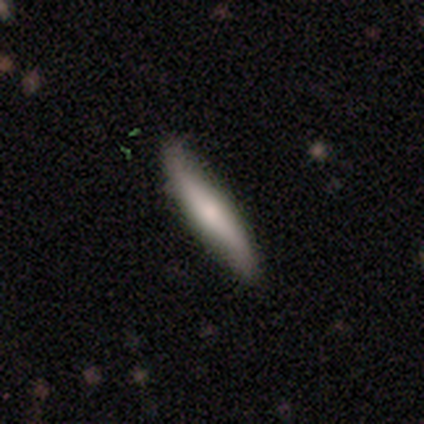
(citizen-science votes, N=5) This appears to be a smooth galaxy with no disk features (80%) that is cigar-shaped (100%). Merging: none (100%).